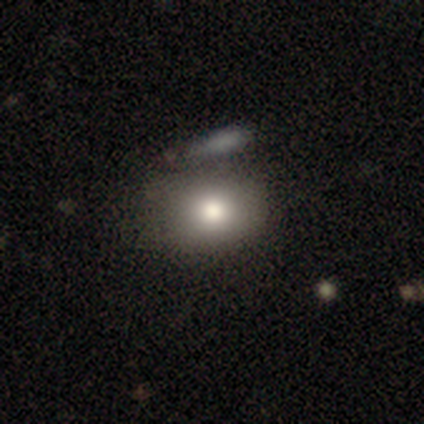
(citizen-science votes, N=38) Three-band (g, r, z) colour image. It shows a smooth galaxy with no disk features (76%) that is in between round and cigar-shaped (62%). Merging: none (70%).